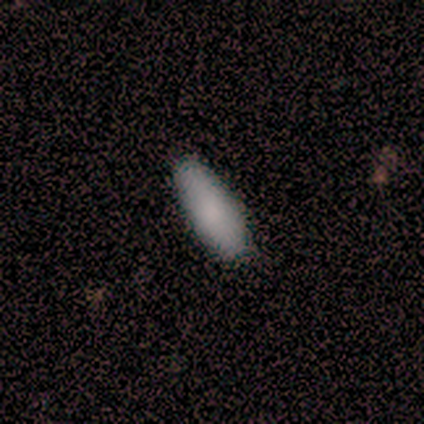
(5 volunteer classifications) Smooth or featured?
  - smooth: 100% *
  - featured or disk: 0%
  - star or artifact: 0%
How rounded?
  - in between: 100% *
  - round: 0%
  - cigar-shaped: 0%
Merging?
  - none: 80% *
  - minor disturbance: 20%
  - major disturbance: 0%
  - merger: 0%